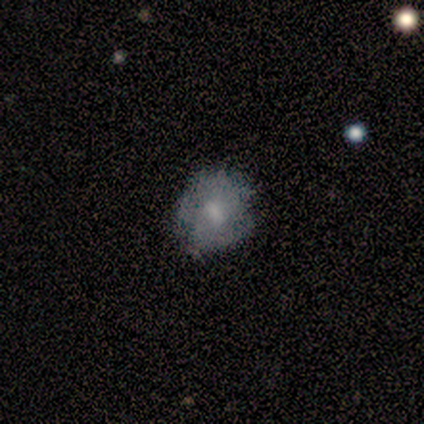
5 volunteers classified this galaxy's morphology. Q: Smooth or featured?
A: smooth (80%); runner-up: featured or disk (20%)
Q: How rounded?
A: round (75%); runner-up: in between (25%)
Q: Merging?
A: none (80%); runner-up: minor disturbance (20%)